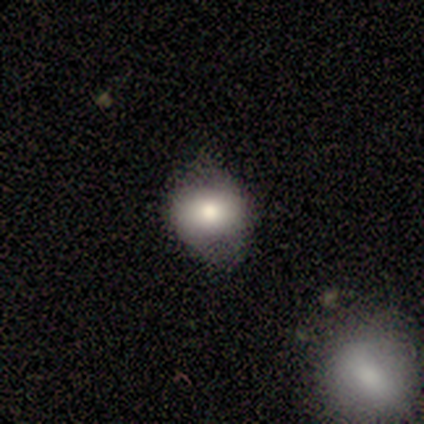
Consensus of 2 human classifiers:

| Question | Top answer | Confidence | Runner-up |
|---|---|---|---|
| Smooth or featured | featured or disk | 100% | — |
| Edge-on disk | yes | 50% | tied: no (50%) |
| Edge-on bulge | none | 100% | — |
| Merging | none | 50% | tied: minor disturbance (50%) |